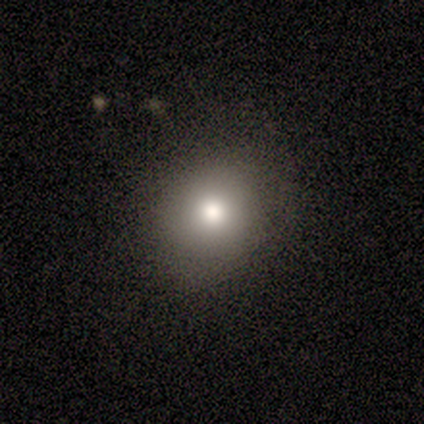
A smooth galaxy with no disk features (60%) that is round (67%).

Vote fractions:
- Smooth or featured? smooth: 60% / star or artifact: 40% / featured or disk: 0%
- How rounded? round: 67% / in between: 33% / cigar-shaped: 0%
- Merging? none: 100% / minor disturbance: 0% / major disturbance: 0% / merger: 0%